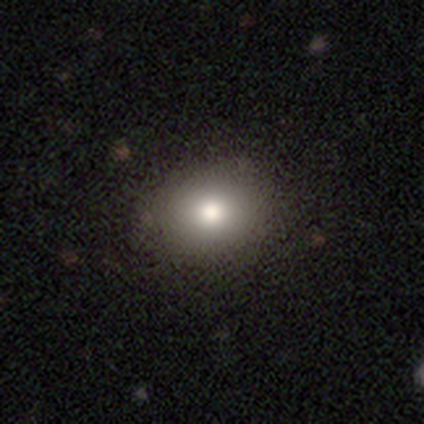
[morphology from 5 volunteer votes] type=smooth (80%); roundness=round (100%); merging=none (100%).